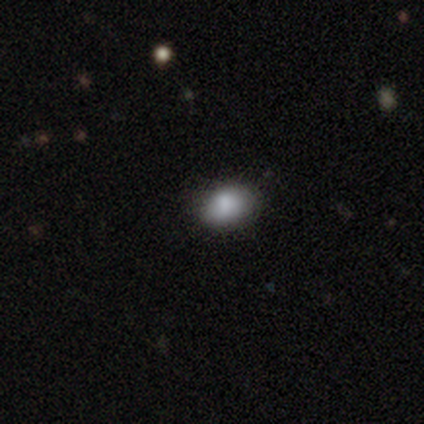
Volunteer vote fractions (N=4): This appears to be a smooth galaxy with no disk features (100%) that is in between round and cigar-shaped (75%). Merging: none (75%).